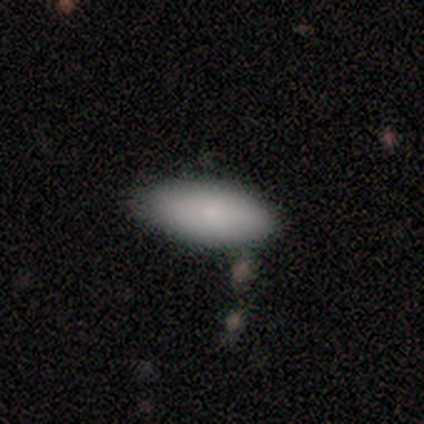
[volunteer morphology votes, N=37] Overall: smooth (92%). How rounded: in between (85%). Merging: none (66%).